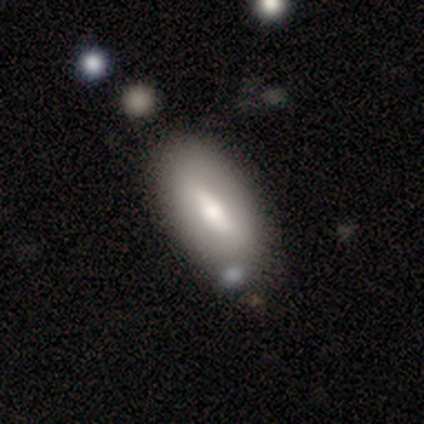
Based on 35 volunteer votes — This appears to be a smooth galaxy with no disk features (51%) that is in between round and cigar-shaped (83%). Merging: none (73%).